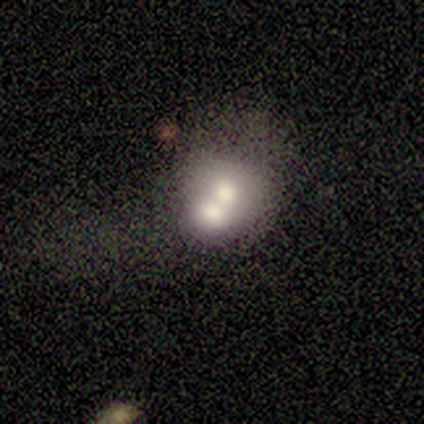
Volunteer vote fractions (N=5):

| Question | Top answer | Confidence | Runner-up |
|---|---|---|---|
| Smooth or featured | smooth | 60% | featured or disk (20%) |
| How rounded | round | 100% | — |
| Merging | merger | 75% | none (25%) |